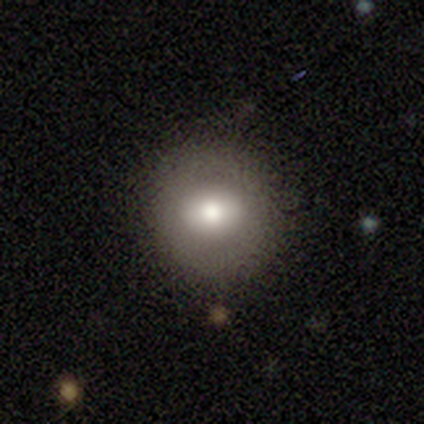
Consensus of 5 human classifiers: A smooth galaxy with no disk features (80%) that is round (75%). Merging: none (100%).